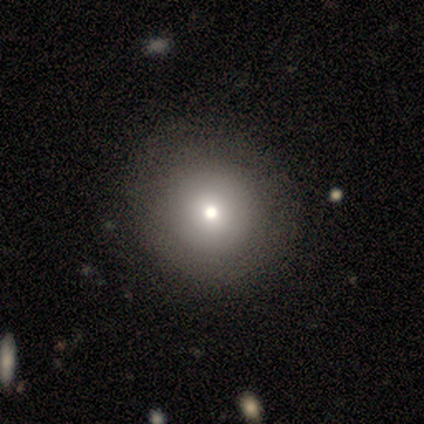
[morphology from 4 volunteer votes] This appears to be a smooth galaxy with no disk features (75%) that is round (100%). Merging: none (67%).